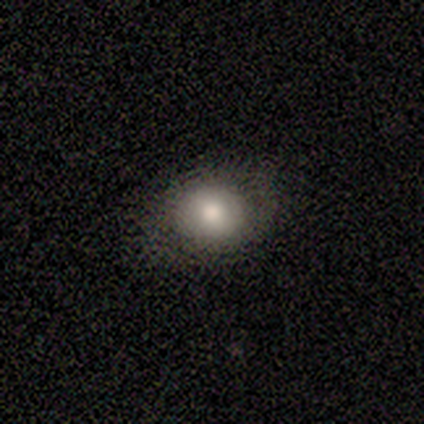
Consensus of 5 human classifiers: This is clearly a smooth galaxy (100%). How rounded: clearly round (100%). Merging: clearly none (80%).